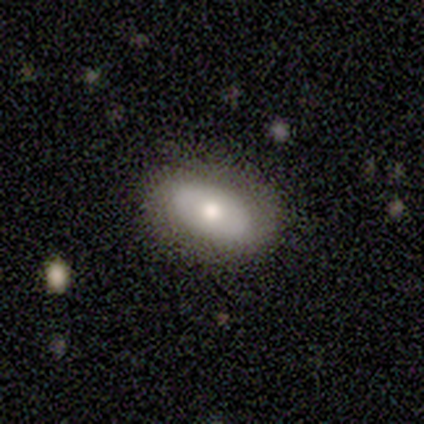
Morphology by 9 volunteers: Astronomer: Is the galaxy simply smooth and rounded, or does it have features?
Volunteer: featured or disk — 56% (runner-up: smooth, 44%).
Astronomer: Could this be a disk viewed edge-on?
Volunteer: no — 100%.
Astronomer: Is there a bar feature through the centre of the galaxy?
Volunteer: no — 80%.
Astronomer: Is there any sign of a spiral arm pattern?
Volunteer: no — 80%.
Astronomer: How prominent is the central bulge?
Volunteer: moderate — 80%.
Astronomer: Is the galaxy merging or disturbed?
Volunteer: none — 89%.